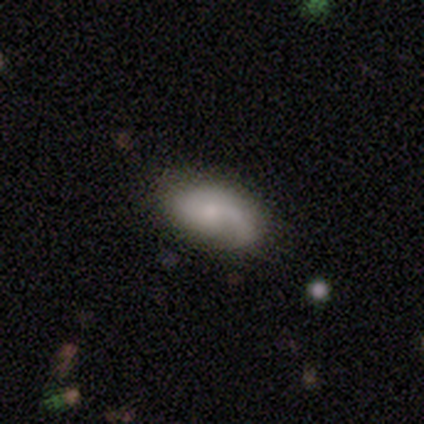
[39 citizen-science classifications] Volunteers were most divided on "smooth or featured": smooth: 51%, featured or disk: 44%, star or artifact: 5%. More confident: how rounded — in between (95%); merging — none (73%).